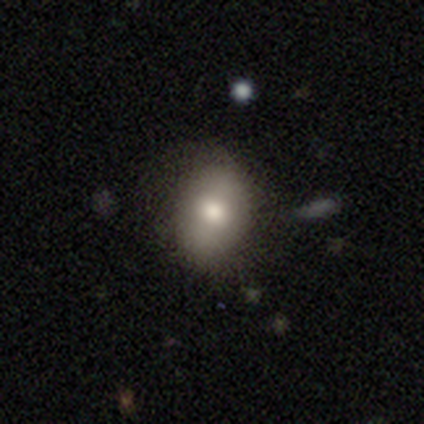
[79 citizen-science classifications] Volunteers were most divided on "merging": none: 39%, minor disturbance: 12%, merger: 5%, major disturbance: 1%. More confident: smooth or featured — smooth (80%); how rounded — in between (75%).